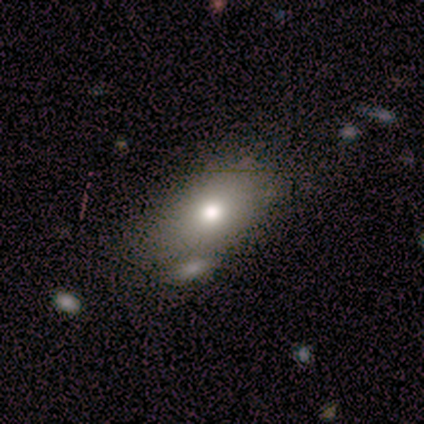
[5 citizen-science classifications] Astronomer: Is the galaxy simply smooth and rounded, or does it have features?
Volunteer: smooth — 60%.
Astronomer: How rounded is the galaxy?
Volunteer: in between — 67%.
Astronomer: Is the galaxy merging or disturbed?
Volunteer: none — 50%, tied with minor disturbance at 50%.